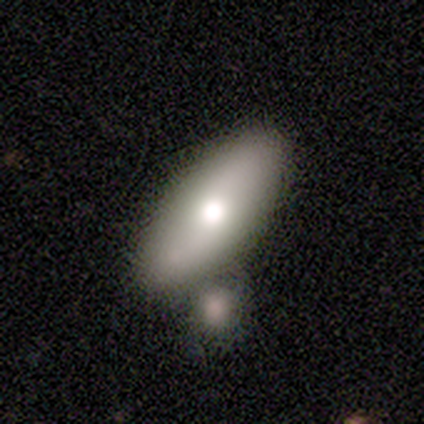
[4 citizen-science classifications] A featured or disk galaxy (50%, tied with star or artifact) viewed edge-on (50%, tied with no) with a rounded central bulge (100%).

Vote fractions:
- Smooth or featured? featured or disk: 50% (tied) / star or artifact: 50% (tied) / smooth: 0%
- Edge-on disk? yes: 50% (tied) / no: 50% (tied)
- Edge-on bulge? rounded: 100% / boxy: 0% / none: 0%
- Merging? none: 50% (tied) / merger: 50% (tied) / minor disturbance: 0% / major disturbance: 0%